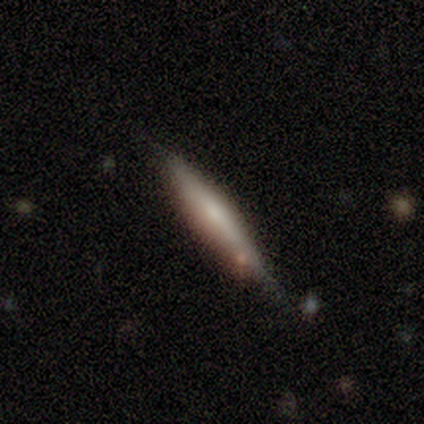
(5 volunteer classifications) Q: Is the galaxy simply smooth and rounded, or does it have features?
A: smooth — 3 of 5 (60%).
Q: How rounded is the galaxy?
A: cigar-shaped — 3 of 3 (100%).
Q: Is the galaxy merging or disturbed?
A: none — 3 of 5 (60%).